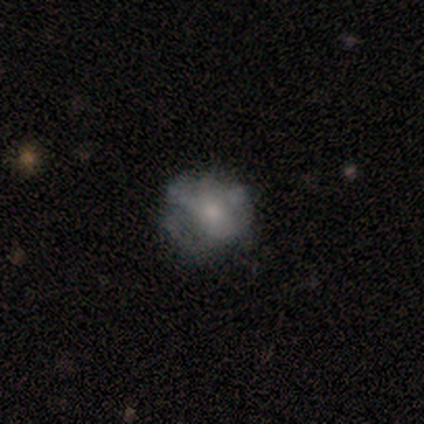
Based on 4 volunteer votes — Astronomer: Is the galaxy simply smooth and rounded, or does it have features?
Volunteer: featured or disk — 50%.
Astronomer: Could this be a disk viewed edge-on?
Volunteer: no — 100%.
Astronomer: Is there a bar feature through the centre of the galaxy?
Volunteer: no — 100%.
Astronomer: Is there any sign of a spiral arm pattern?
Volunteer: yes — 50%, tied with no at 50%.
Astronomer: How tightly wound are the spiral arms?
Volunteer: tight — 100%.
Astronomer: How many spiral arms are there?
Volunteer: can't tell — 100%.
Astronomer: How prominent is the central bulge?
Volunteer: moderate — 50%, tied with small at 50%.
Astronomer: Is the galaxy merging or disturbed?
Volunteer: none — 67%.